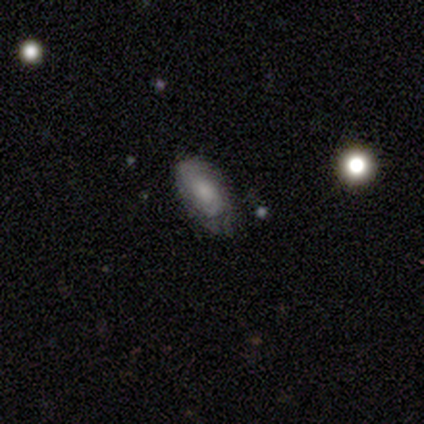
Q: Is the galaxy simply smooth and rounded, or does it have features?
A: smooth — 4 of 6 (67%).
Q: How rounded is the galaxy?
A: in between — 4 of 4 (100%).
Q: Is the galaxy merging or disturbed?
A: minor disturbance — 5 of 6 (83%).